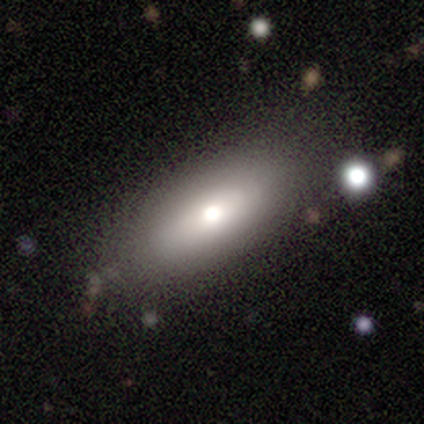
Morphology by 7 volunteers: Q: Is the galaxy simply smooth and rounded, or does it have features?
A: smooth — 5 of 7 (71%).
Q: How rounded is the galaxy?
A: in between — 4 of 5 (80%).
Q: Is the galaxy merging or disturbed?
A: none — 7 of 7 (100%).